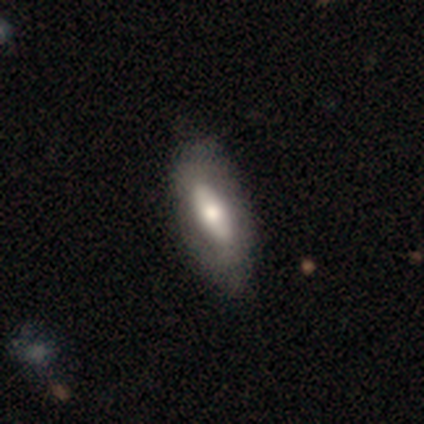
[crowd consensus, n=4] Smooth or featured: smooth — 75% (featured or disk — 25%)
How rounded: in between — 67% (cigar-shaped — 33%)
Merging: none — 50% (tied with minor disturbance — 50%)